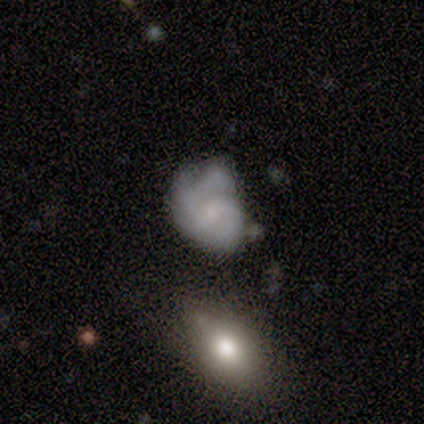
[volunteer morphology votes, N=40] Smooth or featured?
  - featured or disk: 65% *
  - smooth: 25%
  - star or artifact: 10%
Edge-on disk?
  - no: 96% *
  - yes: 4%
Bar?
  - no: 68% *
  - weak: 32%
  - strong: 0%
Spiral arms?
  - yes: 84% *
  - no: 16%
Spiral winding?
  - tight: 48% * (tied)
  - medium: 48% * (tied)
  - loose: 5%
Spiral arm count?
  - 2: 48% *
  - 3: 19%
  - can't tell: 19%
  - 4: 14%
  - 1: 0%
  - more than 4: 0%
Bulge size?
  - small: 52% *
  - none: 36%
  - moderate: 8%
  - dominant: 4%
  - large: 0%
Merging?
  - none: 39% *
  - minor disturbance: 36%
  - major disturbance: 17%
  - merger: 8%